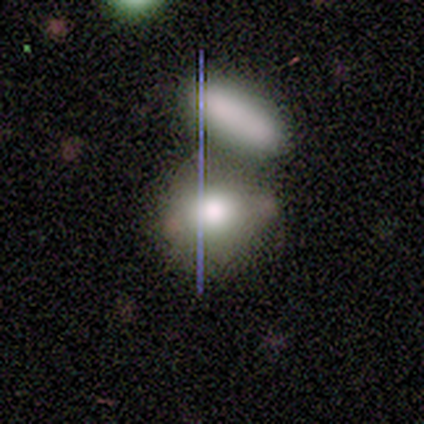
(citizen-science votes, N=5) Volunteers were most divided on "smooth or featured": smooth: 60%, star or artifact: 40%, featured or disk: 0%. More confident: how rounded — round (67%); merging — merger (67%).